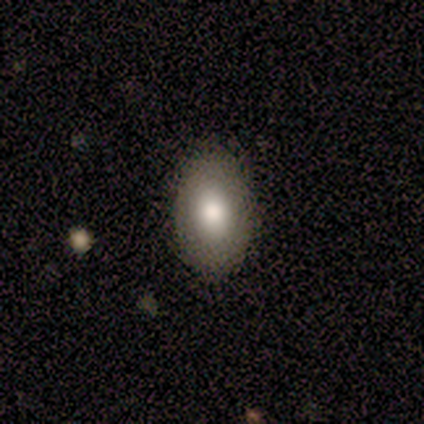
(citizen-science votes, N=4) Smooth or featured? 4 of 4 (100%) said smooth. How rounded? 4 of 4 (100%) said in between. Merging? 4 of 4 (100%) said none.